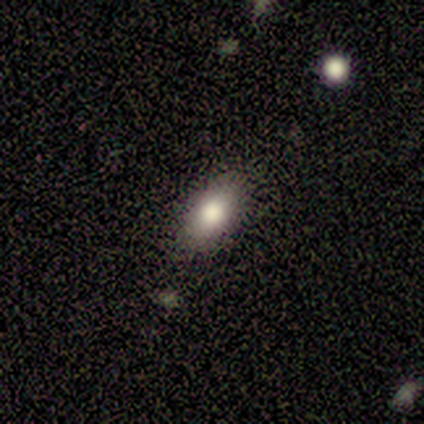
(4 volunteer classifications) Smooth or featured?
  - smooth: 75% *
  - featured or disk: 25%
  - star or artifact: 0%
How rounded?
  - in between: 100% *
  - round: 0%
  - cigar-shaped: 0%
Merging?
  - none: 75% *
  - minor disturbance: 25%
  - major disturbance: 0%
  - merger: 0%